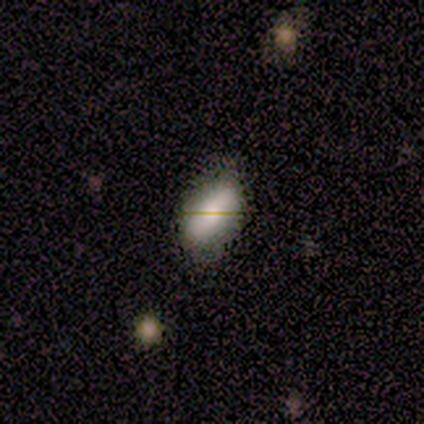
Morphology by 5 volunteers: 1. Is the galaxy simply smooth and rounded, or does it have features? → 60% smooth, 20% featured or disk, 20% star or artifact.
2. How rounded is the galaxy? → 100% in between, 0% round, 0% cigar-shaped.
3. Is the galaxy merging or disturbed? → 50% none (tied), 50% minor disturbance (tied), 0% major disturbance, 0% merger.